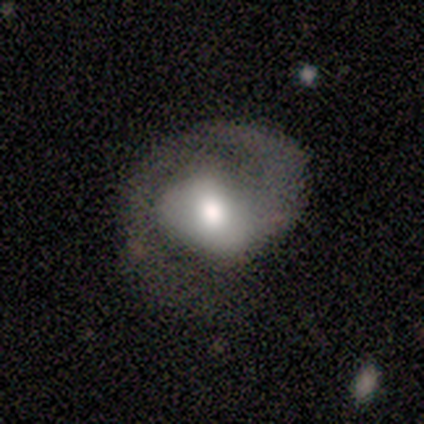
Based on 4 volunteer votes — Smooth or featured? featured or disk (75%)
Edge-on disk? no (100%)
Bar? weak (67%)
Spiral arms? yes (100%)
Spiral winding? medium (67%)
Spiral arm count? 1 (67%)
Bulge size? moderate (67%)
Merging? none (67%)